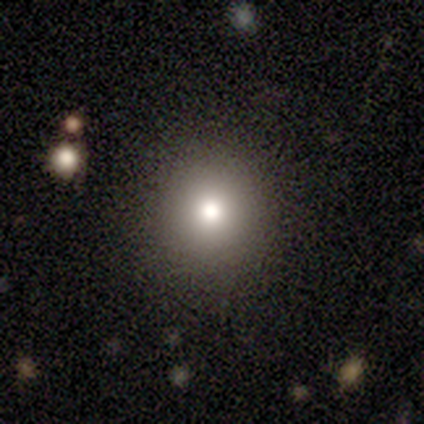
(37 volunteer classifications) Smooth or featured? 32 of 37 (86%) said smooth. How rounded? 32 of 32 (100%) said round. Merging? 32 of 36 (89%) said none.